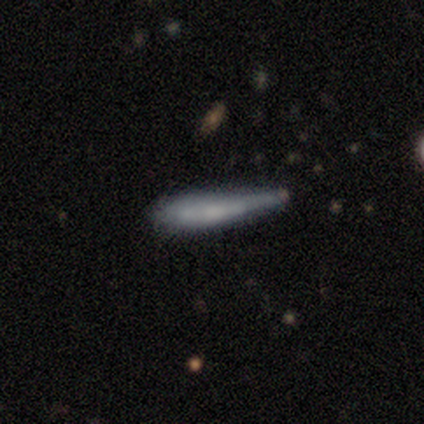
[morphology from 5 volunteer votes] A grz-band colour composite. It shows a smooth galaxy with no disk features (40%, tied with featured or disk) that is cigar-shaped (100%). Merging: none (50%).